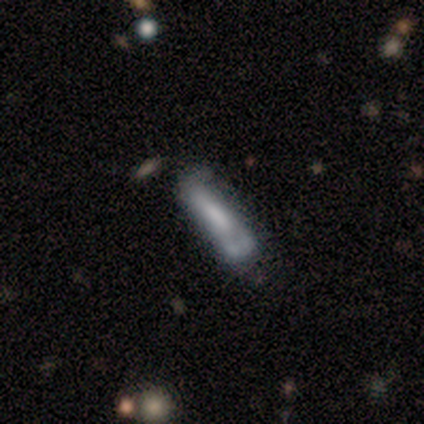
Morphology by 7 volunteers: Smooth or featured: featured or disk — 57% (smooth — 29%)
Edge-on disk: no — 75% (yes — 25%)
Bar: no — 67% (weak — 33%)
Spiral arms: no — 100%
Bulge size: none — 67% (large — 33%)
Merging: major disturbance — 50% (minor disturbance — 33%)